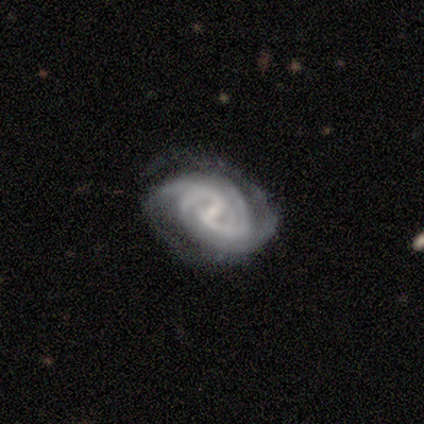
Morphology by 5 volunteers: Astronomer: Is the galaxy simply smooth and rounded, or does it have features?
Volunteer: featured or disk — 100%.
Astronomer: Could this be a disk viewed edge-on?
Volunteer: no — 100%.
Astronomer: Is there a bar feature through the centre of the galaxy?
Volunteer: weak — 60%.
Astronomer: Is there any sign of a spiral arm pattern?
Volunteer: yes — 100%.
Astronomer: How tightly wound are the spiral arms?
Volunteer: medium — 60%.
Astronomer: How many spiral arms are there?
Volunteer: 2 — 60%.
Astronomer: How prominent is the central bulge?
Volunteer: small — 80%.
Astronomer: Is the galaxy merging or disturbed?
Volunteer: none — 40%, tied with minor disturbance at 40%.